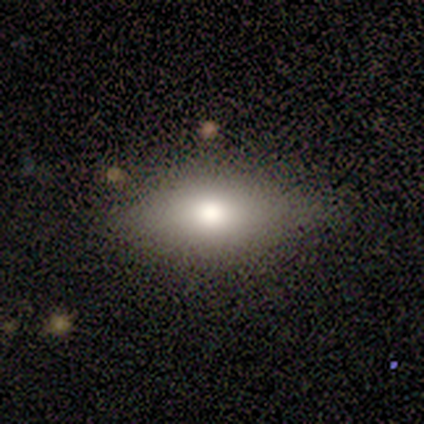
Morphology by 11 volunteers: A smooth galaxy with no disk features (64%) that is cigar-shaped (57%).

Vote fractions:
- Smooth or featured? smooth: 64% / featured or disk: 18% / star or artifact: 18%
- How rounded? cigar-shaped: 57% / in between: 43% / round: 0%
- Merging? none: 78% / minor disturbance: 22% / major disturbance: 0% / merger: 0%